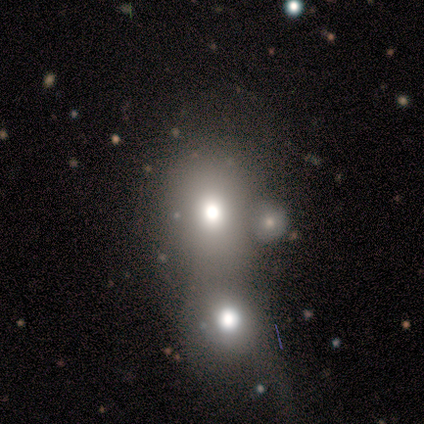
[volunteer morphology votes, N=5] smooth_or_featured: smooth (p=0.60) [alt: featured or disk p=0.20]
how_rounded: in between (p=0.67) [alt: round p=0.33]
merging: merger (p=1.00)